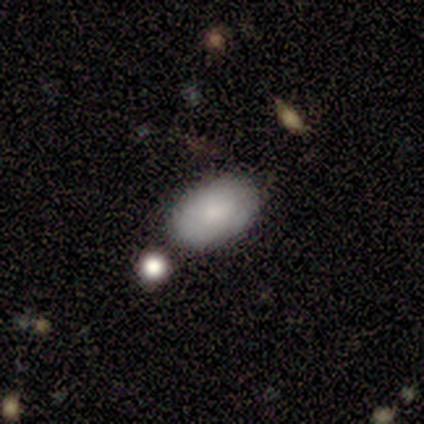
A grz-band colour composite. It shows a smooth galaxy with no disk features (82%) that is in between round and cigar-shaped (97%). Merging: none (76%).